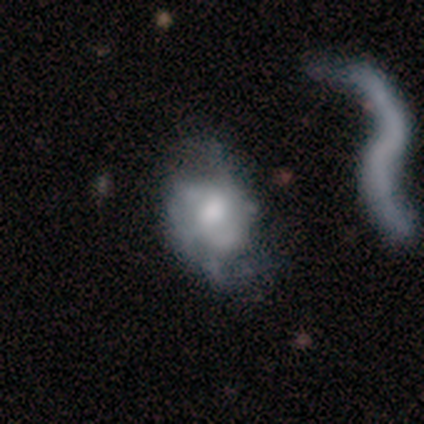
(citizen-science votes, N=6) Smooth or featured? smooth (50%, tied with featured or disk)
How rounded? in between (67%)
Merging? none (33%, tied with minor disturbance)